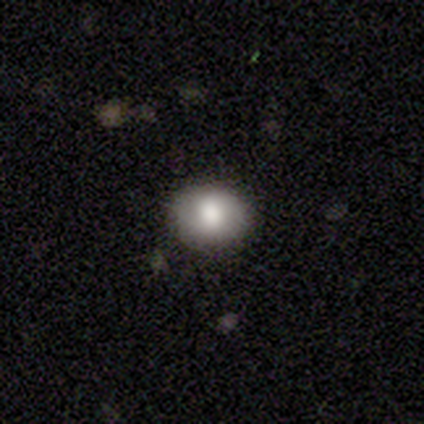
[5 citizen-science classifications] Smooth or featured: smooth — 60% (featured or disk — 20%)
How rounded: round — 67% (in between — 33%)
Merging: none — 75% (minor disturbance — 25%)